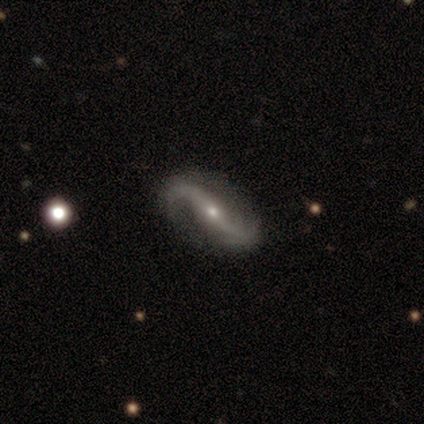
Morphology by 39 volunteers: A featured or disk galaxy (92%) with no bar (39%), 2 (97%) loose (86%) spiral arms (97%) and a small central bulge (64%).

Vote fractions:
- Smooth or featured? featured or disk: 92% / star or artifact: 5% / smooth: 3%
- Edge-on disk? no: 100% / yes: 0%
- Bar? no: 39% / strong: 33% / weak: 28%
- Spiral arms? yes: 97% / no: 3%
- Spiral winding? loose: 86% / medium: 9% / tight: 6%
- Spiral arm count? 2: 97% / can't tell: 3% / 1: 0% / 3: 0% / 4: 0% / more than 4: 0%
- Bulge size? small: 64% / moderate: 33% / none: 3% / dominant: 0% / large: 0%
- Merging? none: 59% / minor disturbance: 27% / major disturbance: 11% / merger: 3%